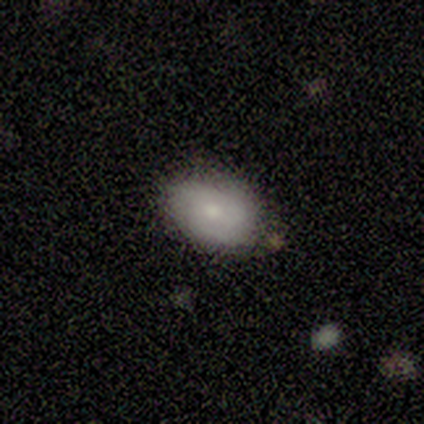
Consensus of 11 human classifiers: Morphology: type=smooth (45%); roundness=in between (100%); merging=none (78%).